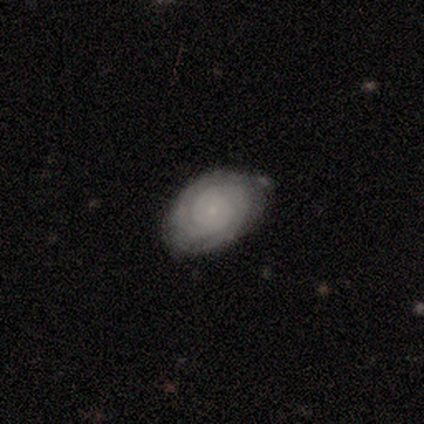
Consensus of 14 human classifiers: A featured or disk galaxy (71%) with no bar (90%), tight (88%) spiral arms (80%) and a small central bulge (100%).

Vote fractions:
- Smooth or featured? featured or disk: 71% / smooth: 29% / star or artifact: 0%
- Edge-on disk? no: 100% / yes: 0%
- Bar? no: 90% / weak: 10% / strong: 0%
- Spiral arms? yes: 80% / no: 20%
- Spiral winding? tight: 88% / loose: 12% / medium: 0%
- Spiral arm count? can't tell: 50% / 2: 38% / 4: 12% / 1: 0% / 3: 0% / more than 4: 0%
- Bulge size? small: 100% / dominant: 0% / large: 0% / moderate: 0% / none: 0%
- Merging? none: 64% / minor disturbance: 21% / major disturbance: 14% / merger: 0%